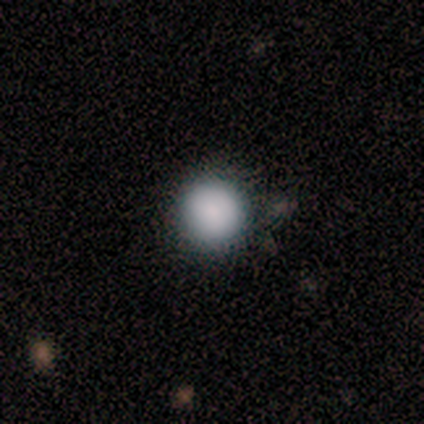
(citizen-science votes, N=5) smooth_or_featured: smooth (p=0.80) [alt: star or artifact p=0.20]
how_rounded: round (p=1.00)
merging: none (p=0.75) [alt: major disturbance p=0.25]